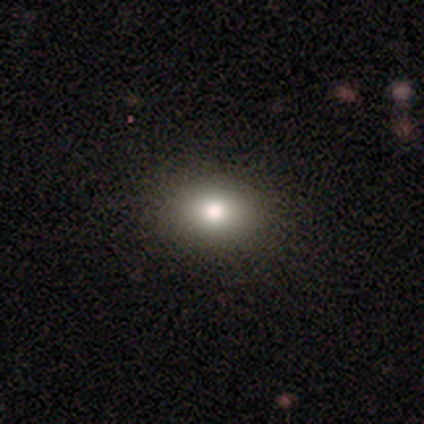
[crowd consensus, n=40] This is likely a smooth galaxy (75%). How rounded: likely in between (67%). Merging: possibly none (49%).